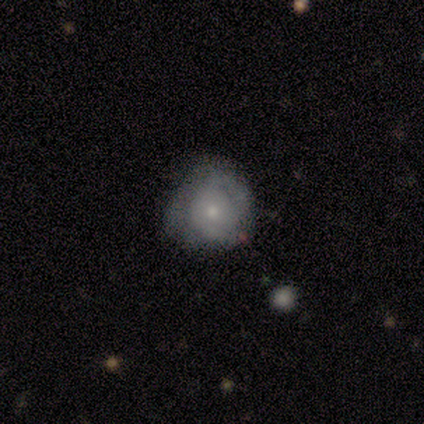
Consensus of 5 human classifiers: Morphology: type=featured or disk (60%); edge-on=no (100%); bar=no (100%); spiral arms=yes (100%); winding=tight (67%); arm count=2 (67%); bulge=small (67%); merging=none (40%, tied with minor disturbance).